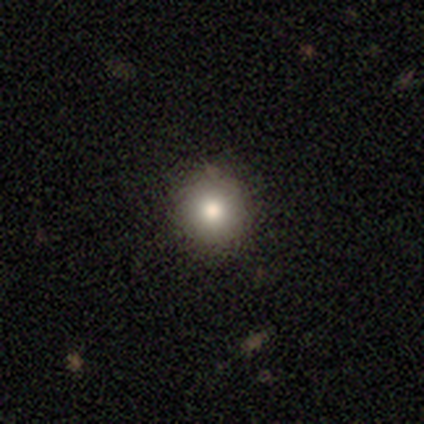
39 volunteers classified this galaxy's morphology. Volunteers were most divided on "smooth or featured": smooth: 64%, star or artifact: 21%, featured or disk: 15%. More confident: how rounded — round (100%); merging — none (94%).